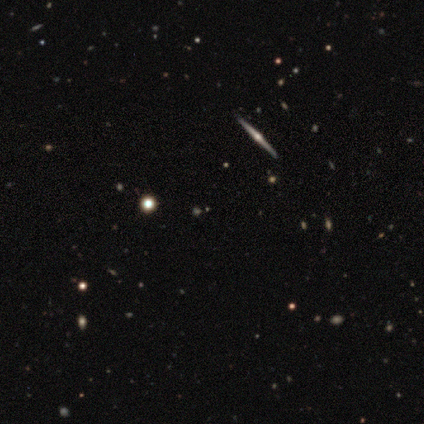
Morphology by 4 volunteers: Smooth or featured? featured or disk (100%)
Edge-on disk? yes (100%)
Edge-on bulge? rounded (100%)
Merging? none (100%)